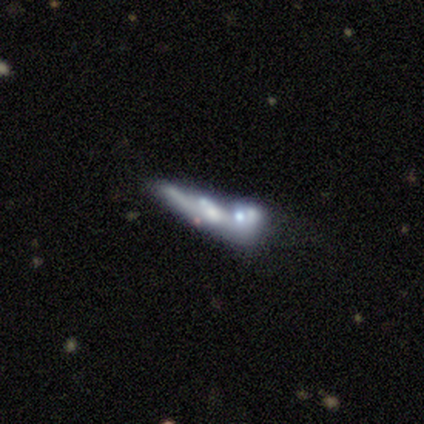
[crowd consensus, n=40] A featured or disk galaxy (72%) with no bar (89%), no spiral arms (84%) and a small central bulge (53%).

Vote fractions:
- Smooth or featured? featured or disk: 72% / smooth: 15% / star or artifact: 12%
- Edge-on disk? no: 66% / yes: 34%
- Bar? no: 89% / weak: 11% / strong: 0%
- Spiral arms? no: 84% / yes: 16%
- Bulge size? small: 53% / none: 37% / moderate: 11% / dominant: 0% / large: 0%
- Merging? merger: 60% / major disturbance: 23% / minor disturbance: 11% / none: 6%